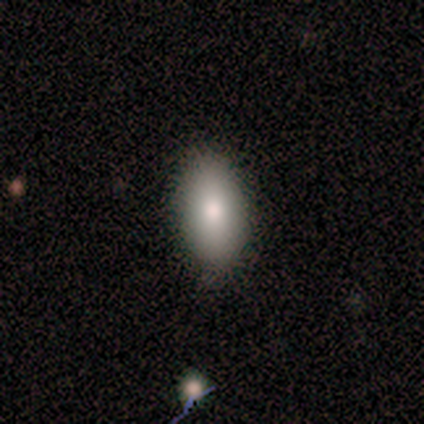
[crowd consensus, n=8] Smooth or featured? smooth (75%)
How rounded? in between (100%)
Merging? none (100%)